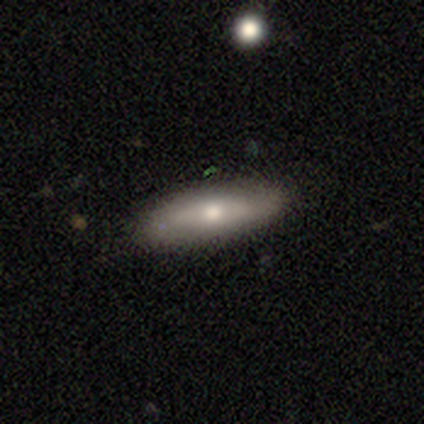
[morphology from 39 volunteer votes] Smooth or featured? 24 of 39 (62%) said smooth. How rounded? 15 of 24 (62%) said in between. Merging? 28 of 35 (80%) said none.